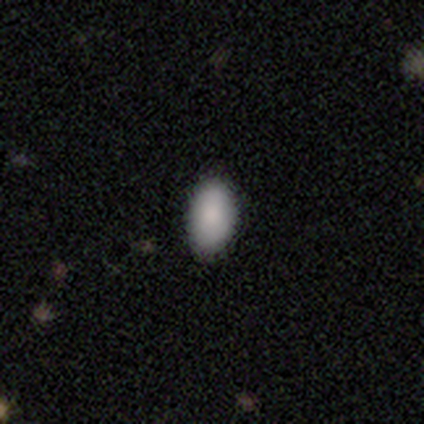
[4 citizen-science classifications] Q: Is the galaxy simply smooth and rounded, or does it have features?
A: smooth — 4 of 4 (100%).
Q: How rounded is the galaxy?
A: in between — 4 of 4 (100%).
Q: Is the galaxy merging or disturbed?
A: none — 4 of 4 (100%).